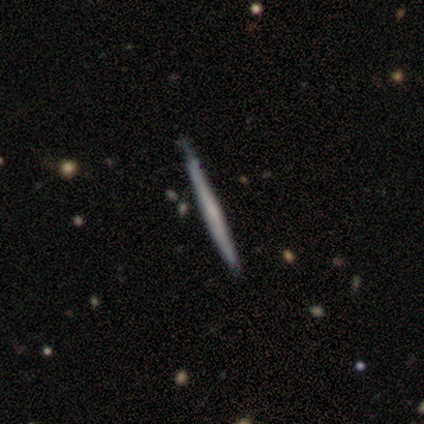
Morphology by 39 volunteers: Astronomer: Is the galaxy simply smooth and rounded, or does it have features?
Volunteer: featured or disk — 72%.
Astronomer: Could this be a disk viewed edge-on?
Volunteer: yes — 96%.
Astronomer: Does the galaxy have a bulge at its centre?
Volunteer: none — 74%.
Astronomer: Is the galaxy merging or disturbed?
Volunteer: none — 61%.